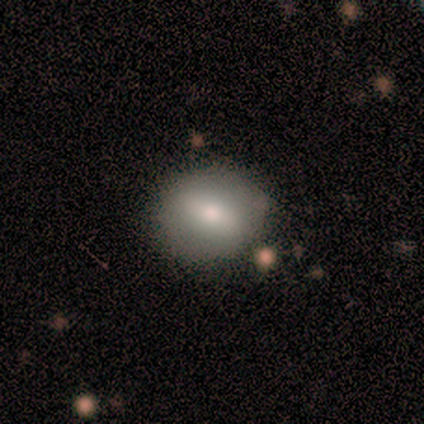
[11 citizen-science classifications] smooth-or-featured: smooth: 73% | featured or disk: 27% | star or artifact: 0%
  how-rounded: round: 75% | in between: 25% | cigar-shaped: 0%
  merging: none: 64% | minor disturbance: 36% | major disturbance: 0% | merger: 0%